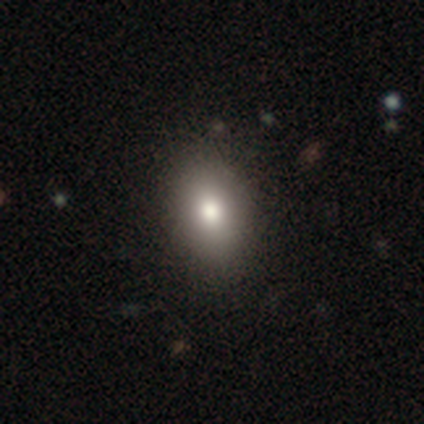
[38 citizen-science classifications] smooth_or_featured: smooth (p=0.71) [alt: featured or disk p=0.16]
how_rounded: in between (p=0.93) [alt: round p=0.04]
merging: none (p=0.85) [alt: minor disturbance p=0.15]